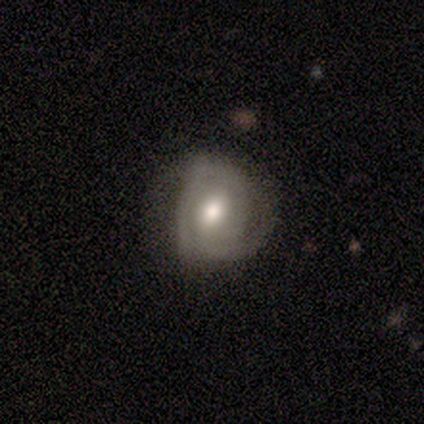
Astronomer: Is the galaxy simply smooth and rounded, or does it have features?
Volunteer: featured or disk — 83%.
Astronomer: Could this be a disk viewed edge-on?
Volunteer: no — 100%.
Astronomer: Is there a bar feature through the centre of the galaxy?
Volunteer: weak — 80%.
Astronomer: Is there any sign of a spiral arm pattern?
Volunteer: yes — 80%.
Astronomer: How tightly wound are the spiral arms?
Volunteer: tight — 75%.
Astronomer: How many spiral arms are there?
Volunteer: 2 — 50%.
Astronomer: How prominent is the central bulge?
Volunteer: moderate — 60% (runner-up: small, 40%).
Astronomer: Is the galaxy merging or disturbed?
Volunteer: none — 50% (runner-up: minor disturbance, 33%).